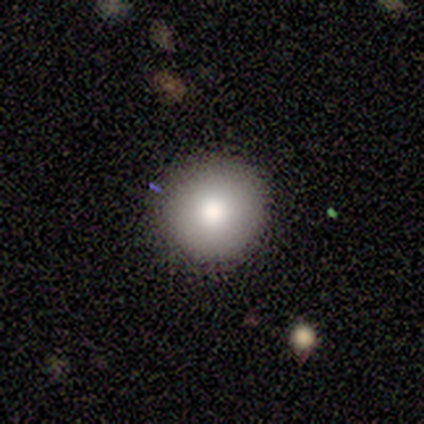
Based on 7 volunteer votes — Overall: smooth (100%). How rounded: round (100%). Merging: none (100%).